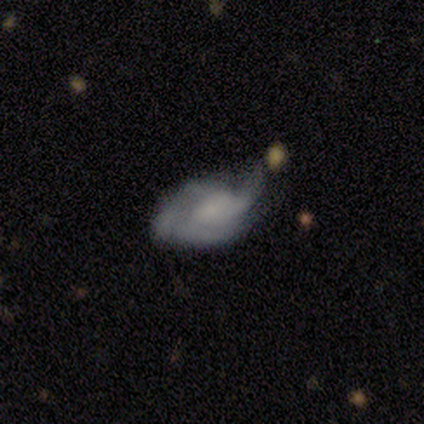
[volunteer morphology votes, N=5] Q: Smooth or featured?
A: featured or disk (80%); runner-up: smooth (20%)
Q: Edge-on disk?
A: no (100%)
Q: Bar?
A: weak (75%); runner-up: strong (25%)
Q: Spiral arms?
A: yes (100%)
Q: Spiral winding?
A: medium (75%); runner-up: tight (25%)
Q: Spiral arm count?
A: can't tell (50%); runner-up: 3 (25%)
Q: Bulge size?
A: small (75%); runner-up: moderate (25%)
Q: Merging?
A: minor disturbance (80%); runner-up: major disturbance (20%)